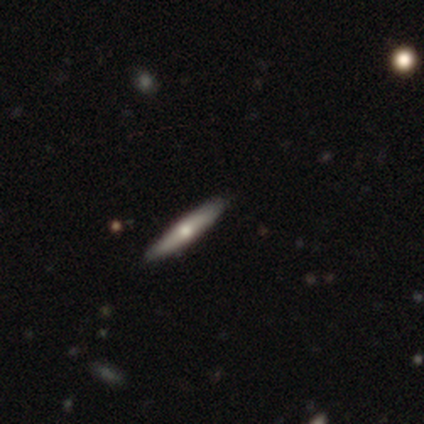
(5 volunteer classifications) smooth-or-featured: smooth: 80% | featured or disk: 20% | star or artifact: 0%
  how-rounded: cigar-shaped: 100% | round: 0% | in between: 0%
  merging: none: 100% | minor disturbance: 0% | major disturbance: 0% | merger: 0%